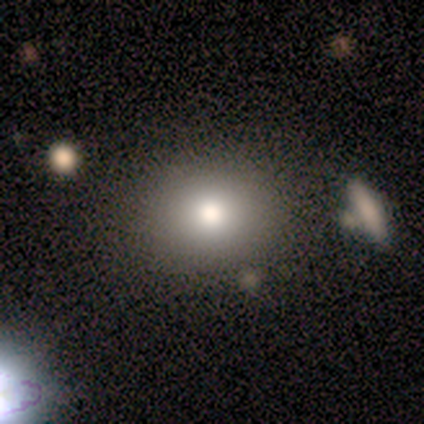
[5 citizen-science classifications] A smooth galaxy with no disk features (100%) that is round (80%). Merging: none (100%).